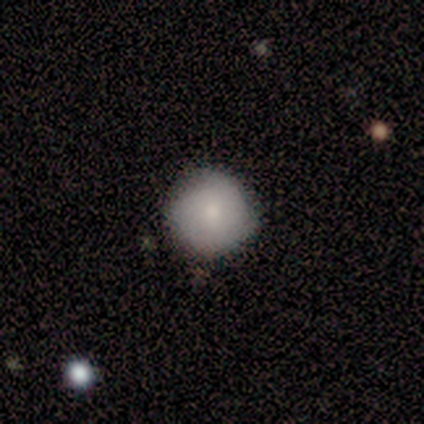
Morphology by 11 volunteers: This is likely a smooth galaxy (73%). How rounded: clearly round (88%). Merging: likely none (73%).